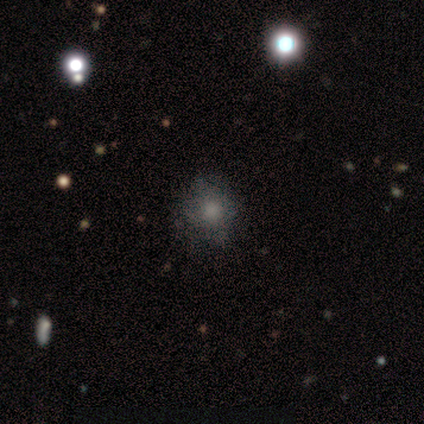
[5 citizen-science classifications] A featured or disk galaxy (60%) with no bar (100%), no spiral arms (100%) and no central bulge (67%).

Vote fractions:
- Smooth or featured? featured or disk: 60% / smooth: 40% / star or artifact: 0%
- Edge-on disk? no: 100% / yes: 0%
- Bar? no: 100% / strong: 0% / weak: 0%
- Spiral arms? no: 100% / yes: 0%
- Bulge size? none: 67% / moderate: 33% / dominant: 0% / large: 0% / small: 0%
- Merging? none: 60% / minor disturbance: 20% / major disturbance: 20% / merger: 0%